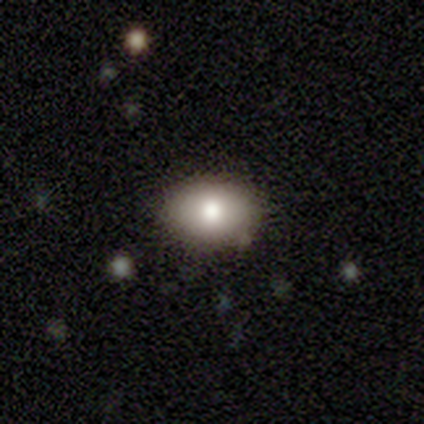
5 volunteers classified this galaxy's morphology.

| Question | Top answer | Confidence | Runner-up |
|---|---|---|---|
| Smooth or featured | smooth | 80% | star or artifact (20%) |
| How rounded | in between | 75% | round (25%) |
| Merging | none | 75% | minor disturbance (25%) |